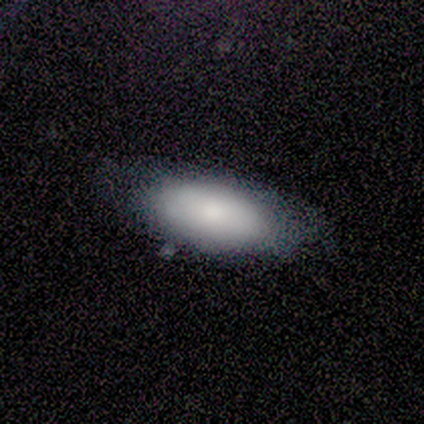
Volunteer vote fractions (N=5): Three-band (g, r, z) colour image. It shows a smooth galaxy with no disk features (80%) that is in between round and cigar-shaped (100%). Merging: none (80%).